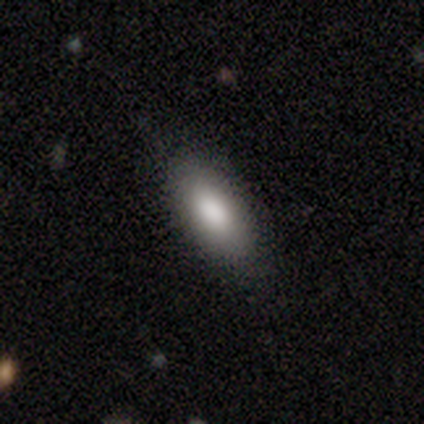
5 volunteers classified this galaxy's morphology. A smooth galaxy with no disk features (100%) that is in between round and cigar-shaped (60%).

Vote fractions:
- Smooth or featured? smooth: 100% / featured or disk: 0% / star or artifact: 0%
- How rounded? in between: 60% / cigar-shaped: 40% / round: 0%
- Merging? none: 100% / minor disturbance: 0% / major disturbance: 0% / merger: 0%